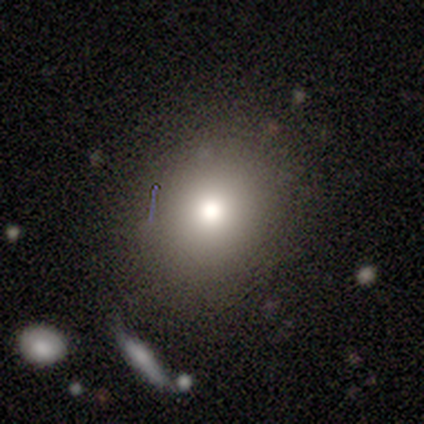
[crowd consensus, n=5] Smooth or featured? 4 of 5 (80%) said smooth. How rounded? 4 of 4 (100%) said round. Merging? 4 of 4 (100%) said none.